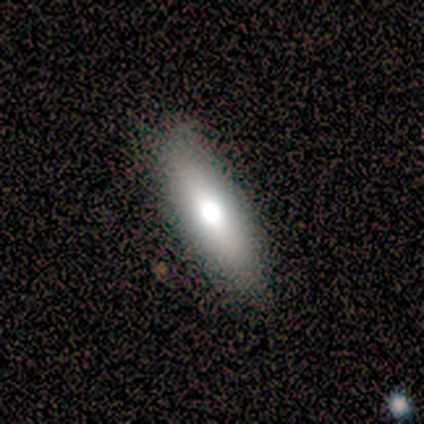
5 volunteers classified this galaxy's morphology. Smooth or featured?
  - smooth: 60% *
  - featured or disk: 40%
  - star or artifact: 0%
How rounded?
  - cigar-shaped: 67% *
  - in between: 33%
  - round: 0%
Merging?
  - none: 100% *
  - minor disturbance: 0%
  - major disturbance: 0%
  - merger: 0%